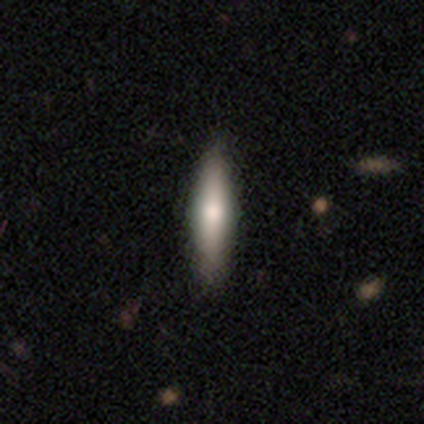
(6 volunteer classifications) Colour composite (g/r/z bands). It shows a smooth galaxy with no disk features (67%) that is cigar-shaped (100%). Merging: none (60%).